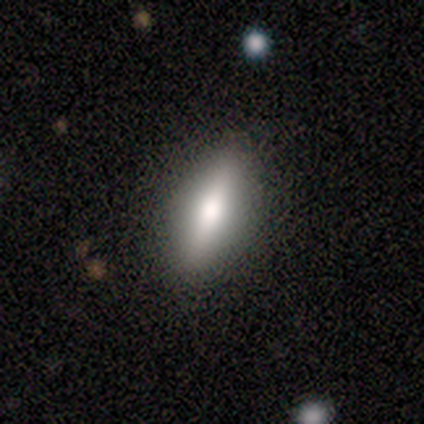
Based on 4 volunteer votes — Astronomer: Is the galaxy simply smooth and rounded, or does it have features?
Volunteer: smooth — 50%, tied with featured or disk at 50%.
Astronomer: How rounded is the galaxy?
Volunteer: cigar-shaped — 100%.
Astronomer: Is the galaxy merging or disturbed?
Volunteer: none — 100%.